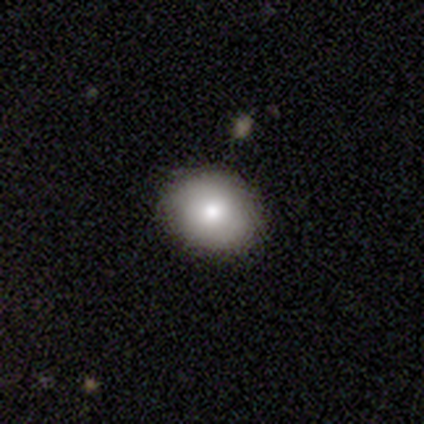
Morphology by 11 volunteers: Smooth or featured? smooth (82%)
How rounded? in between (56%)
Merging? none (80%)